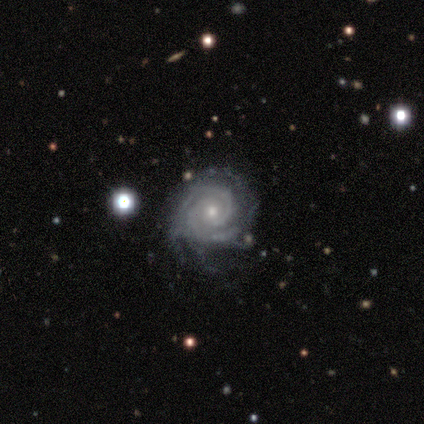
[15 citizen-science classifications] Smooth or featured?
  - featured or disk: 93% *
  - star or artifact: 7%
  - smooth: 0%
Edge-on disk?
  - no: 100% *
  - yes: 0%
Bar?
  - no: 64% *
  - weak: 29%
  - strong: 7%
Spiral arms?
  - yes: 100% *
  - no: 0%
Spiral winding?
  - tight: 86% *
  - medium: 14%
  - loose: 0%
Spiral arm count?
  - 2: 50% *
  - can't tell: 29%
  - 3: 21%
  - 1: 0%
  - 4: 0%
  - more than 4: 0%
Bulge size?
  - small: 64% *
  - moderate: 36%
  - dominant: 0%
  - large: 0%
  - none: 0%
Merging?
  - none: 71% *
  - minor disturbance: 29%
  - major disturbance: 0%
  - merger: 0%